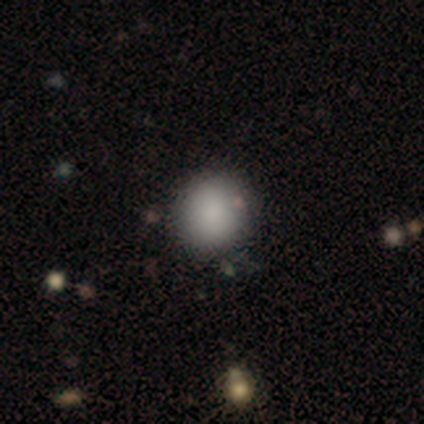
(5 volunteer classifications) A smooth galaxy with no disk features (80%) that is round (100%).

Vote fractions:
- Smooth or featured? smooth: 80% / featured or disk: 20% / star or artifact: 0%
- How rounded? round: 100% / in between: 0% / cigar-shaped: 0%
- Merging? none: 60% / minor disturbance: 40% / major disturbance: 0% / merger: 0%